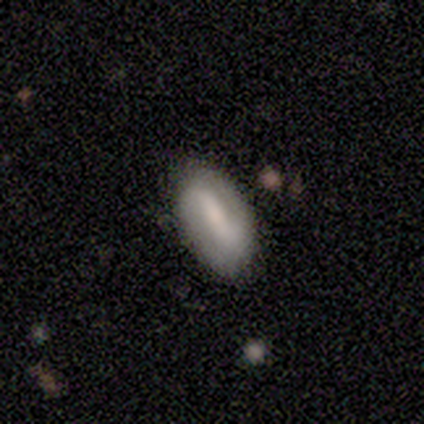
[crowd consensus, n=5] smooth 60%, featured or disk 40%, star or artifact 0%. Down the decision tree: how rounded — in between (100%); merging — none (40%, tied with minor disturbance).